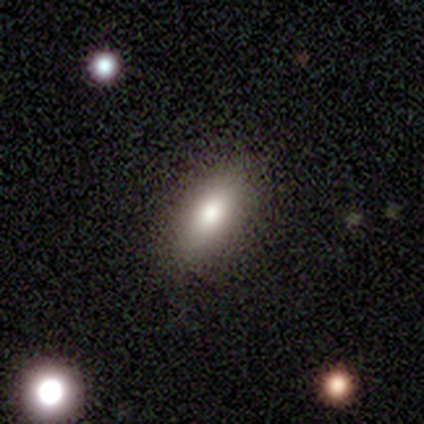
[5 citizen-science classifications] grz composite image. It shows a smooth galaxy with no disk features (100%) that is in between round and cigar-shaped (100%). Merging: none (100%).